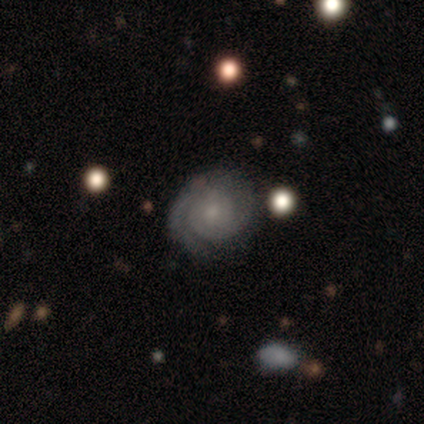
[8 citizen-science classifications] Q: Smooth or featured?
A: featured or disk (50%); runner-up: smooth (25%)
Q: Edge-on disk?
A: no (100%)
Q: Bar?
A: no (75%); runner-up: weak (25%)
Q: Spiral arms?
A: yes (100%)
Q: Spiral winding?
A: tight (75%); runner-up: medium (25%)
Q: Spiral arm count?
A: 2 (50%); tied with: can't tell (50%)
Q: Bulge size?
A: small (100%)
Q: Merging?
A: none (67%); runner-up: minor disturbance (17%)